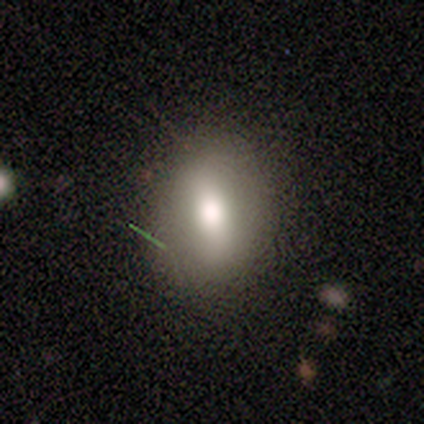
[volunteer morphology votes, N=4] Smooth or featured: smooth — 100%
How rounded: in between — 50% (round — 25%)
Merging: none — 100%